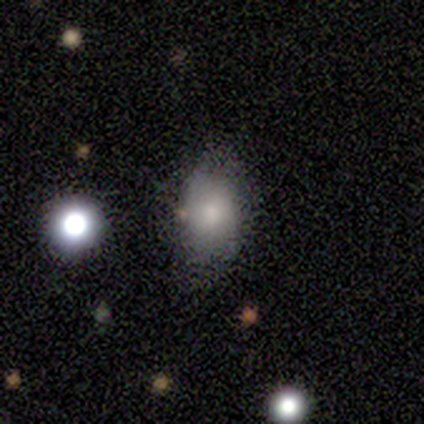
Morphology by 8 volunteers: This appears to be a smooth galaxy with no disk features (50%) that is in between round and cigar-shaped (100%). Merging: minor disturbance (60%).